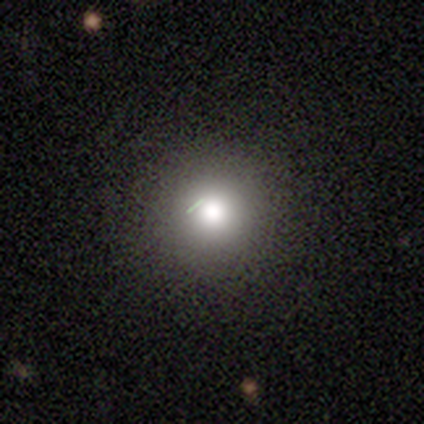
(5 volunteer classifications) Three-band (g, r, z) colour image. It shows a smooth galaxy with no disk features (80%) that is round (100%). Merging: none (100%).